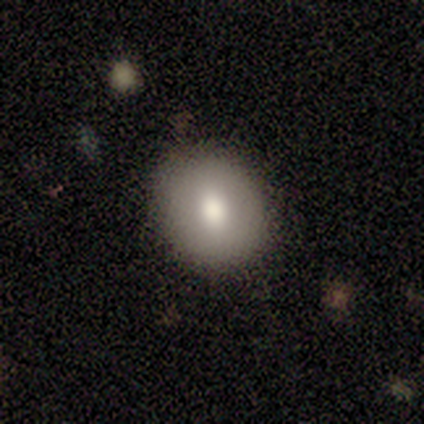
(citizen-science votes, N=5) A smooth galaxy with no disk features (100%) that is in between round and cigar-shaped (60%).

Vote fractions:
- Smooth or featured? smooth: 100% / featured or disk: 0% / star or artifact: 0%
- How rounded? in between: 60% / round: 40% / cigar-shaped: 0%
- Merging? none: 100% / minor disturbance: 0% / major disturbance: 0% / merger: 0%